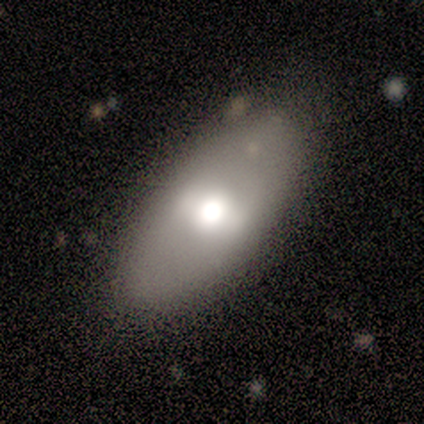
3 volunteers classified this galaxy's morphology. smooth-or-featured: smooth: 100% | featured or disk: 0% | star or artifact: 0%
  how-rounded: in between: 100% | round: 0% | cigar-shaped: 0%
  merging: none: 100% | minor disturbance: 0% | major disturbance: 0% | merger: 0%